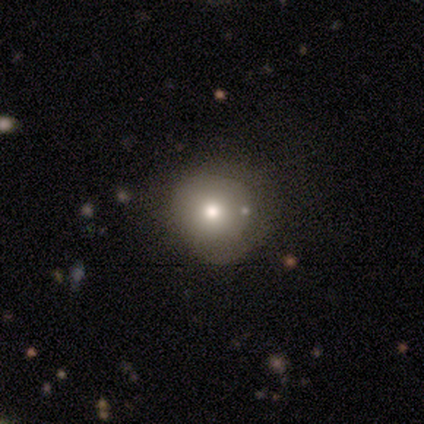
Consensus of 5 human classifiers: A smooth galaxy with no disk features (60%) that is round (100%).

Vote fractions:
- Smooth or featured? smooth: 60% / featured or disk: 40% / star or artifact: 0%
- How rounded? round: 100% / in between: 0% / cigar-shaped: 0%
- Merging? none: 80% / minor disturbance: 20% / major disturbance: 0% / merger: 0%